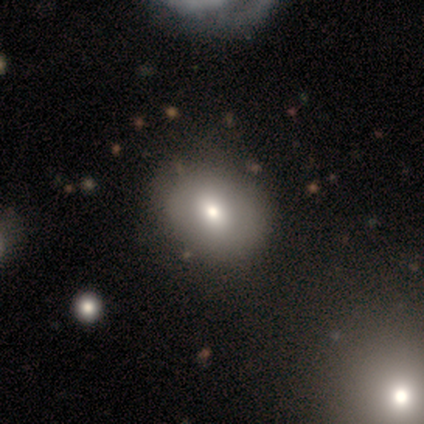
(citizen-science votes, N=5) smooth_or_featured: smooth (p=0.80) [alt: featured or disk p=0.20]
how_rounded: round (p=0.75) [alt: in between p=0.25]
merging: none (p=0.60) [alt: minor disturbance p=0.20]